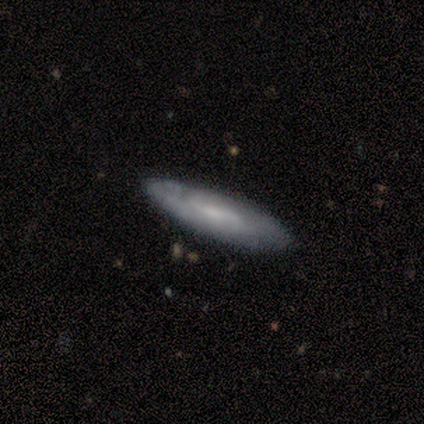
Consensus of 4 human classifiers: A featured or disk galaxy (50%) viewed edge-on (50%, tied with no) with no central bulge (100%).

Vote fractions:
- Smooth or featured? featured or disk: 50% / smooth: 25% / star or artifact: 25%
- Edge-on disk? yes: 50% (tied) / no: 50% (tied)
- Edge-on bulge? none: 100% / boxy: 0% / rounded: 0%
- Merging? none: 100% / minor disturbance: 0% / major disturbance: 0% / merger: 0%